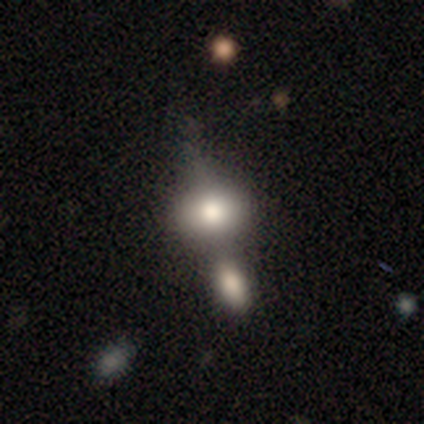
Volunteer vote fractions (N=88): A smooth galaxy with no disk features (67%) that is in between round and cigar-shaped (58%). Merging: merger (52%).